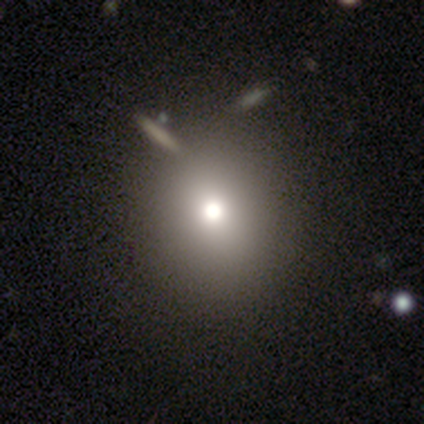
Smooth or featured?
  - smooth: 80% *
  - star or artifact: 20%
  - featured or disk: 0%
How rounded?
  - round: 75% *
  - cigar-shaped: 25%
  - in between: 0%
Merging?
  - none: 75% *
  - minor disturbance: 25%
  - major disturbance: 0%
  - merger: 0%